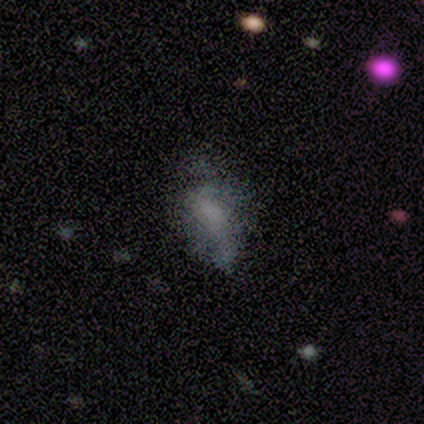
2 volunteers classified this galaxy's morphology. A featured or disk galaxy (50%, tied with star or artifact) with no bar (100%), no spiral arms (100%) and a small central bulge (100%). Merging: minor disturbance (100%).